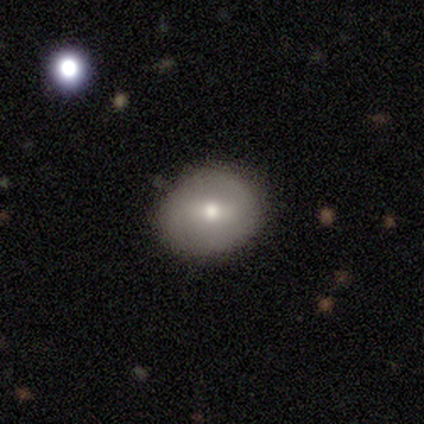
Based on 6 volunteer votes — smooth 50%, featured or disk 33%, star or artifact 17%. Down the decision tree: how rounded — round (100%); merging — none (80%).